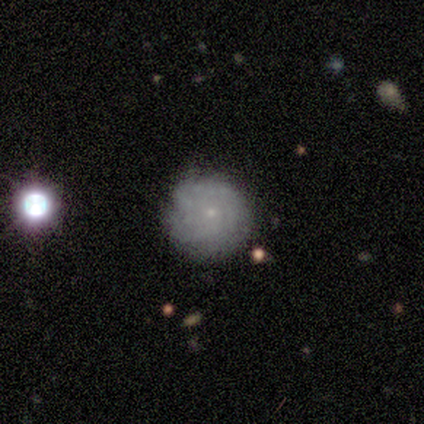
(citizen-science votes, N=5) A smooth galaxy with no disk features (60%) that is round (100%). Merging: none (80%).